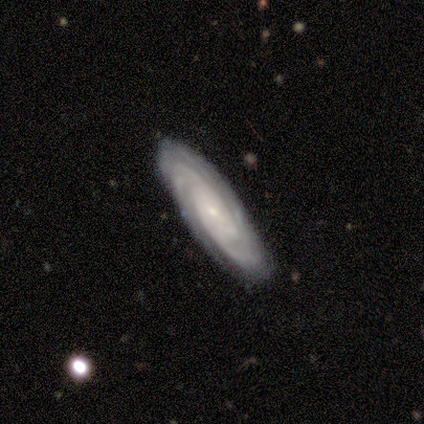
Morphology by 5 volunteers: type=featured or disk (100%); edge-on=no (100%); bar=no (80%); spiral arms=yes (100%); winding=tight (80%); arm count=3 (60%); bulge=small (60%); merging=none (100%).